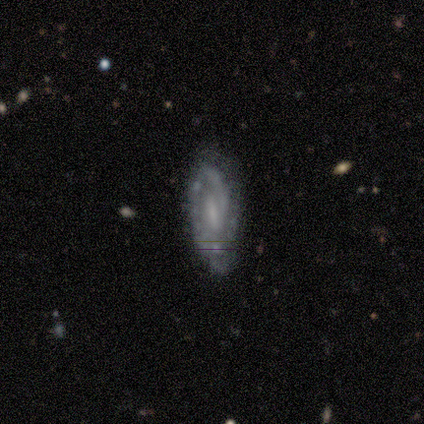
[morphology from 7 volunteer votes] Smooth or featured?
  - featured or disk: 86% *
  - smooth: 14%
  - star or artifact: 0%
Edge-on disk?
  - no: 100% *
  - yes: 0%
Bar?
  - strong: 33% * (tied)
  - weak: 33% * (tied)
  - no: 33% * (tied)
Spiral arms?
  - yes: 67% *
  - no: 33%
Spiral winding?
  - tight: 75% *
  - medium: 25%
  - loose: 0%
Spiral arm count?
  - can't tell: 75% *
  - 2: 25%
  - 1: 0%
  - 3: 0%
  - 4: 0%
  - more than 4: 0%
Bulge size?
  - none: 67% *
  - small: 33%
  - dominant: 0%
  - large: 0%
  - moderate: 0%
Merging?
  - none: 71% *
  - minor disturbance: 29%
  - major disturbance: 0%
  - merger: 0%